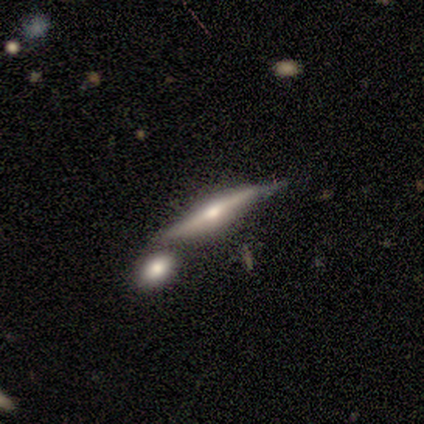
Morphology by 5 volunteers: featured or disk 100%, smooth 0%, star or artifact 0%. Down the decision tree: edge-on disk — yes (100%); edge-on bulge — rounded (100%); merging — none (80%).